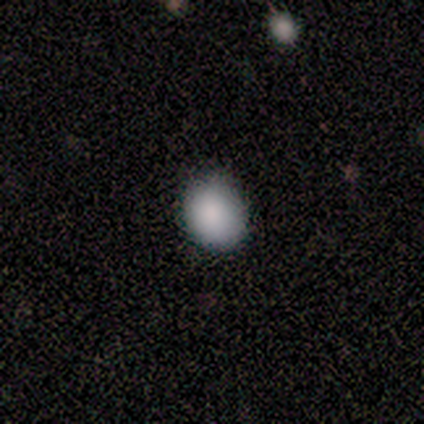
Q: Smooth or featured?
A: smooth (67%); runner-up: featured or disk (17%)
Q: How rounded?
A: round (75%); runner-up: in between (25%)
Q: Merging?
A: minor disturbance (60%); runner-up: none (40%)